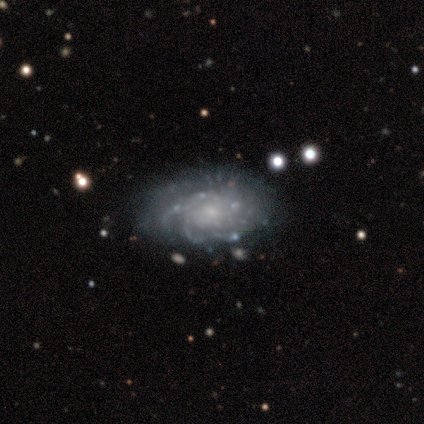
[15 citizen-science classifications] Q: Smooth or featured?
A: featured or disk (93%); runner-up: star or artifact (7%)
Q: Edge-on disk?
A: no (93%); runner-up: yes (7%)
Q: Bar?
A: no (62%); runner-up: weak (31%)
Q: Spiral arms?
A: yes (85%); runner-up: no (15%)
Q: Spiral winding?
A: tight (64%); runner-up: medium (27%)
Q: Spiral arm count?
A: more than 4 (36%); tied with: can't tell (36%)
Q: Bulge size?
A: small (85%); runner-up: moderate (8%)
Q: Merging?
A: none (64%); runner-up: minor disturbance (29%)